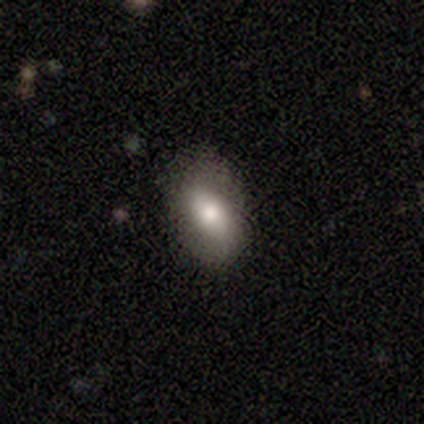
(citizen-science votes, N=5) Smooth or featured? 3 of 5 (60%) said smooth. How rounded? 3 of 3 (100%) said in between. Merging? 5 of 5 (100%) said none.